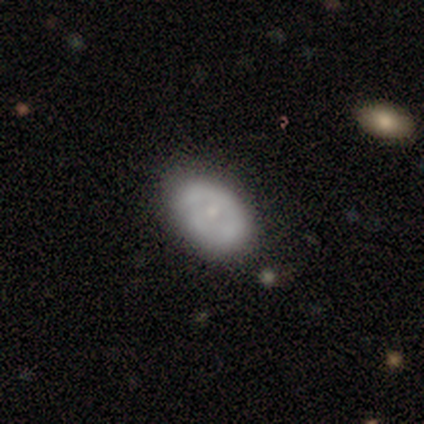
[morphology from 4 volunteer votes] Smooth or featured: smooth — 50% (tied with featured or disk — 50%)
How rounded: in between — 100%
Merging: none — 50% (tied with minor disturbance — 50%)